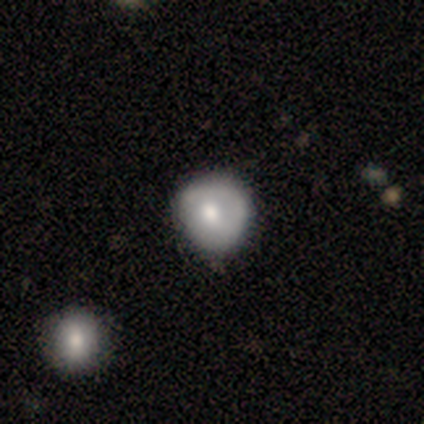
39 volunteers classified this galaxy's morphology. Volunteers were most divided on "smooth or featured": smooth: 62%, featured or disk: 36%, star or artifact: 3%. More confident: how rounded — round (71%); merging — none (50%).